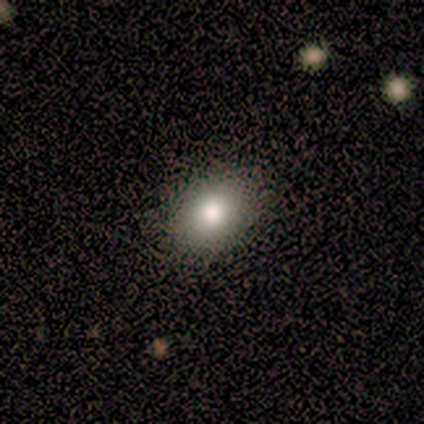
Smooth or featured? smooth (100%)
How rounded? in between (75%)
Merging? none (100%)